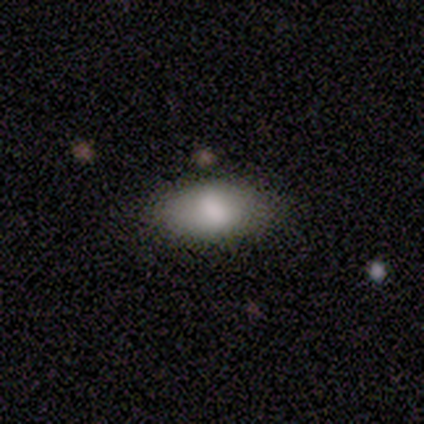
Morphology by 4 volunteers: Smooth or featured? 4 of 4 (100%) said smooth. How rounded? 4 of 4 (100%) said in between. Merging? 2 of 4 (50%, tied with minor disturbance) said none.